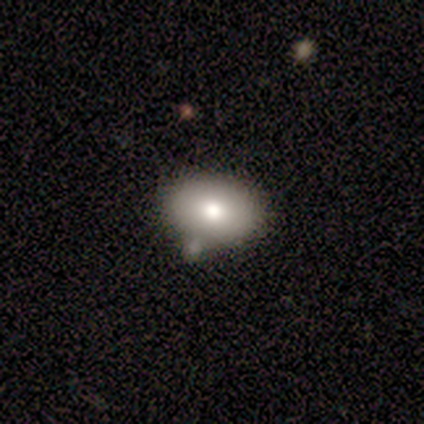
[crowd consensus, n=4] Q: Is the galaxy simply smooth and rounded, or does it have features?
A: smooth — 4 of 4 (100%).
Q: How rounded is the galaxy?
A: in between — 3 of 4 (75%).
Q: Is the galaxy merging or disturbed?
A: none — 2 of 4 (50%, tied with minor disturbance).